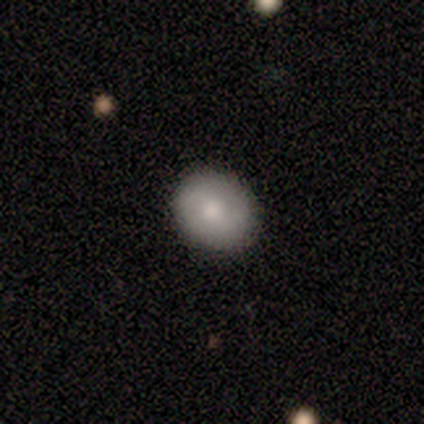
Q: Smooth or featured?
A: smooth (80%); runner-up: featured or disk (20%)
Q: How rounded?
A: round (100%)
Q: Merging?
A: none (100%)